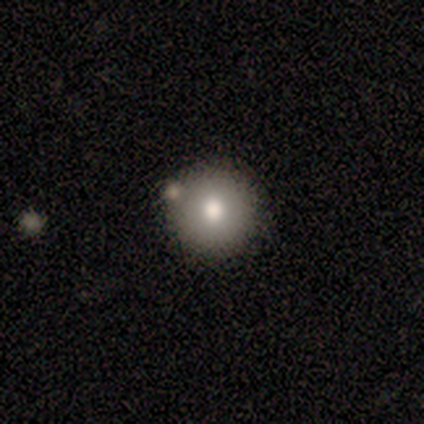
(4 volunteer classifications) A smooth galaxy with no disk features (75%) that is round (100%).

Vote fractions:
- Smooth or featured? smooth: 75% / featured or disk: 25% / star or artifact: 0%
- How rounded? round: 100% / in between: 0% / cigar-shaped: 0%
- Merging? none: 75% / merger: 25% / minor disturbance: 0% / major disturbance: 0%